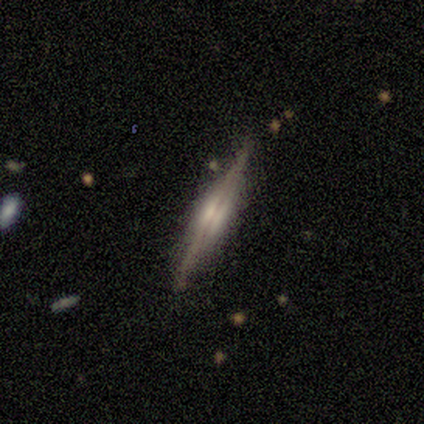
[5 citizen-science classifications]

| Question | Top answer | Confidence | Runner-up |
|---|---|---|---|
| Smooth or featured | featured or disk | 100% | — |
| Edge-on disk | yes | 100% | — |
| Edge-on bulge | rounded | 60% | boxy (40%) |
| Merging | none | 80% | minor disturbance (20%) |